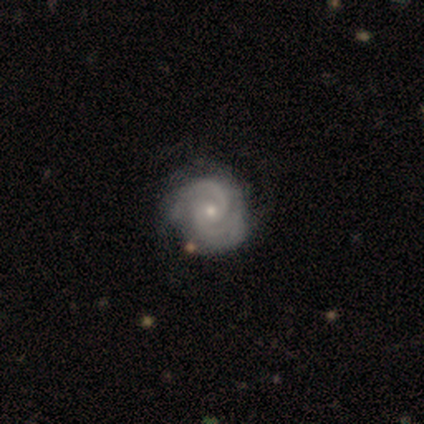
This appears to be a featured or disk galaxy (89%) with no bar (85%), 2 (85%) tight (73%) spiral arms (97%) and a small central bulge (62%). Merging: none (47%).